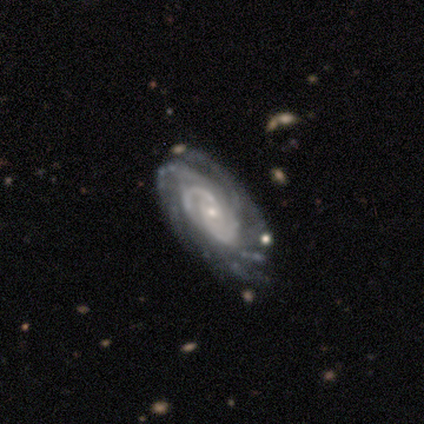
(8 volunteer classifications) smooth-or-featured: featured or disk: 100% | smooth: 0% | star or artifact: 0%
  disk-edge-on: no: 100% | yes: 0%
    bar: no: 88% | weak: 12% | strong: 0%
    has-spiral-arms: yes: 100% | no: 0%
      spiral-winding: tight: 50% (tied) | medium: 50% (tied) | loose: 0%
      spiral-arm-count: 2: 25% (tied) | 4: 25% (tied) | more than 4: 25% (tied) | can't tell: 25% (tied) | 1: 0% | 3: 0%
    bulge-size: small: 100% | dominant: 0% | large: 0% | moderate: 0% | none: 0%
  merging: none: 88% | minor disturbance: 12% | major disturbance: 0% | merger: 0%